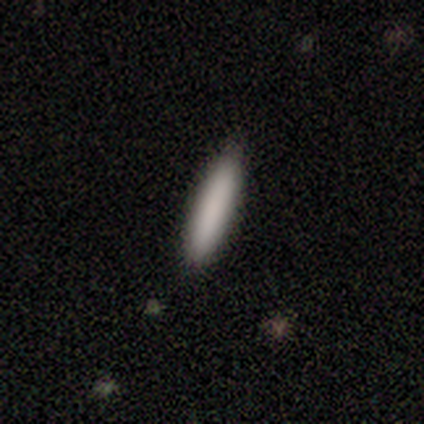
Smooth or featured? 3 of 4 (75%) said smooth. How rounded? 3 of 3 (100%) said cigar-shaped. Merging? 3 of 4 (75%) said none.